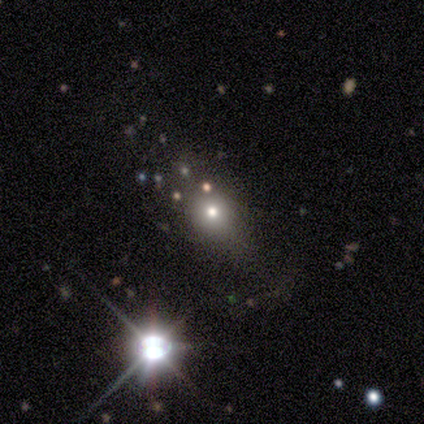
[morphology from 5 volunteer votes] Smooth or featured?
  - star or artifact: 60% *
  - smooth: 40%
  - featured or disk: 0%